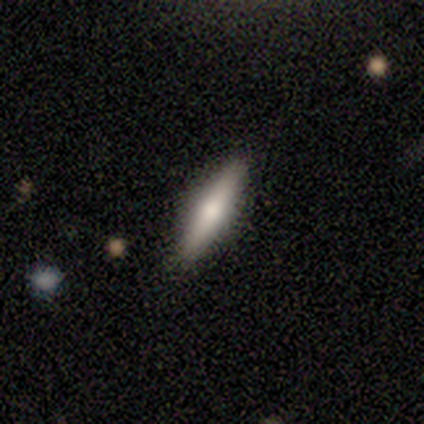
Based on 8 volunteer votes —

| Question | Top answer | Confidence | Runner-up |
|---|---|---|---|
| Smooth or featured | smooth | 50% | tied: featured or disk (50%) |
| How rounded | cigar-shaped | 100% | — |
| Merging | none | 62% | minor disturbance (25%) |